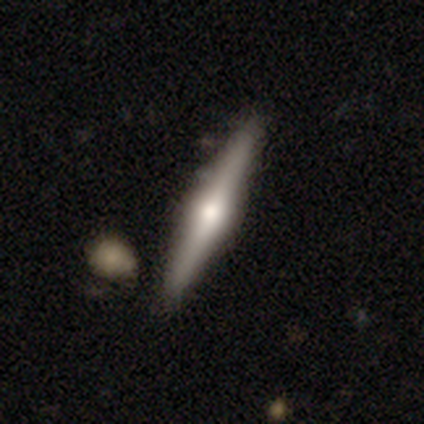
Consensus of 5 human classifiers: A featured or disk galaxy (100%) viewed edge-on (100%) with a rounded central bulge (60%).

Vote fractions:
- Smooth or featured? featured or disk: 100% / smooth: 0% / star or artifact: 0%
- Edge-on disk? yes: 100% / no: 0%
- Edge-on bulge? rounded: 60% / boxy: 20% / none: 20%
- Merging? none: 40% (tied) / minor disturbance: 40% (tied) / merger: 20% / major disturbance: 0%